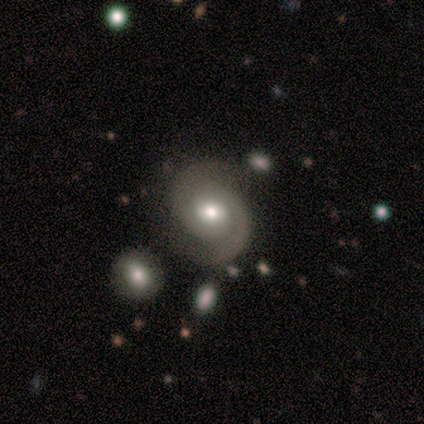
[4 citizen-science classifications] smooth_or_featured: featured or disk (p=1.00)
disk_edge_on: no (p=1.00)
bar: no (p=0.75) [alt: strong p=0.25]
has_spiral_arms: yes (p=1.00)
spiral_winding: medium (p=0.75) [alt: tight p=0.25]
spiral_arm_count: 2 (p=1.00)
bulge_size: moderate (p=0.50) [alt: dominant p=0.25]
merging: none (p=0.75) [alt: minor disturbance p=0.25]